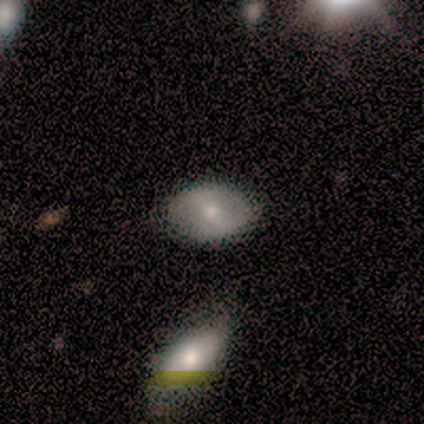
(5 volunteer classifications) smooth_or_featured: featured or disk (p=0.60) [alt: smooth p=0.20]
disk_edge_on: no (p=1.00)
bar: no (p=0.67) [alt: strong p=0.33]
has_spiral_arms: no (p=1.00)
bulge_size: small (p=0.67) [alt: moderate p=0.33]
merging: none (p=1.00)